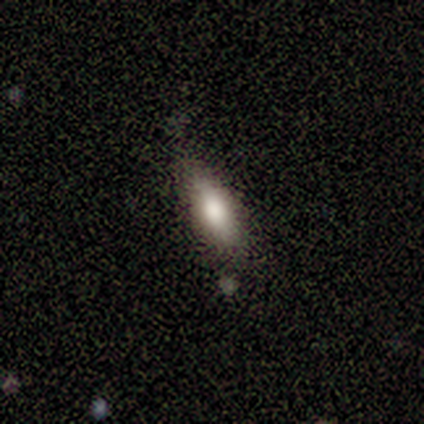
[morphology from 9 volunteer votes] Volunteers were most divided on "how rounded": in between: 88%, cigar-shaped: 12%, round: 0%. More confident: smooth or featured — smooth (89%); merging — none (89%).